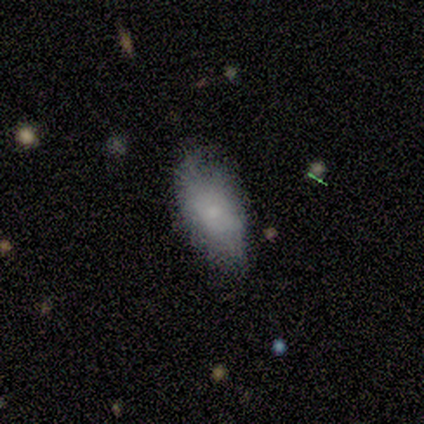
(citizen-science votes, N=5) A smooth galaxy with no disk features (80%) that is in between round and cigar-shaped (100%).

Vote fractions:
- Smooth or featured? smooth: 80% / featured or disk: 20% / star or artifact: 0%
- How rounded? in between: 100% / round: 0% / cigar-shaped: 0%
- Merging? minor disturbance: 80% / none: 20% / major disturbance: 0% / merger: 0%